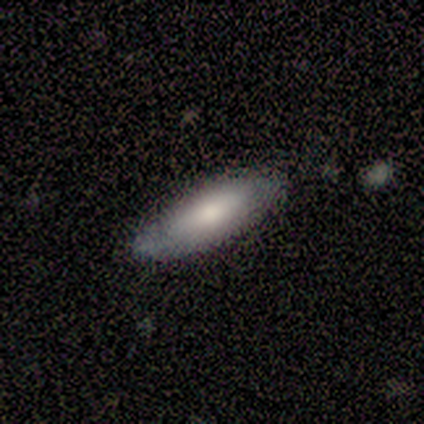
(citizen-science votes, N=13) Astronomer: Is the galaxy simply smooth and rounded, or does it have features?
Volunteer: smooth — 62%.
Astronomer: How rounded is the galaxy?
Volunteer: in between — 50%, tied with cigar-shaped at 50%.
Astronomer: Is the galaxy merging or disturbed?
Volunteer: none — 82%.